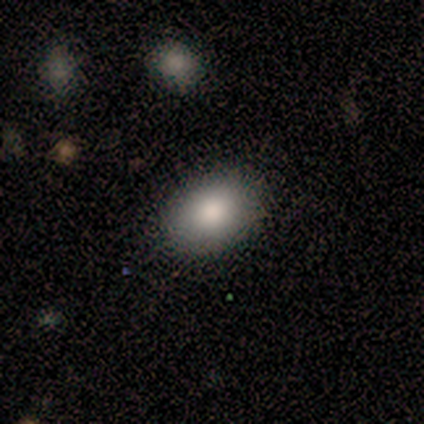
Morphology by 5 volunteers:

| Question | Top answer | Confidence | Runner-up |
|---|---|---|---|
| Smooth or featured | smooth | 100% | — |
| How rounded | in between | 100% | — |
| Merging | none | 100% | — |